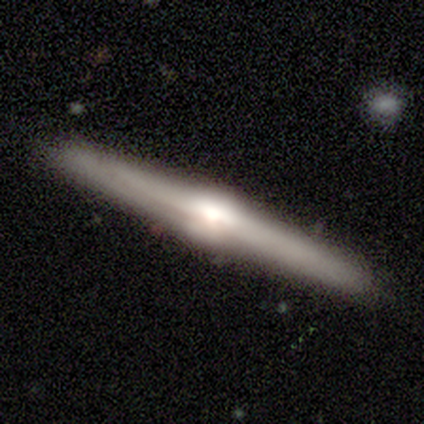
Smooth or featured?
  - featured or disk: 88% *
  - smooth: 8%
  - star or artifact: 5%
Edge-on disk?
  - yes: 97% *
  - no: 3%
Edge-on bulge?
  - rounded: 85% *
  - boxy: 9%
  - none: 6%
Merging?
  - none: 89% *
  - minor disturbance: 5%
  - major disturbance: 3%
  - merger: 3%